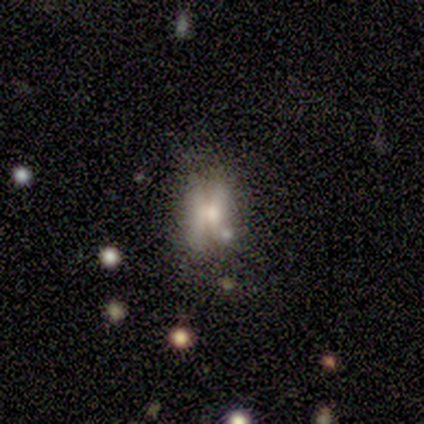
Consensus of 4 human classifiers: A smooth galaxy with no disk features (50%, tied with featured or disk) that is round (50%, tied with in between). Merging: none (25%, tied with minor disturbance, major disturbance and merger).